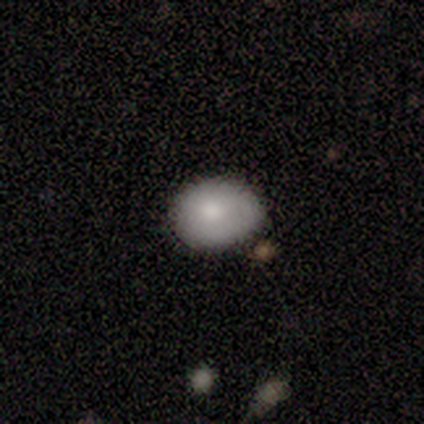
Overall: smooth (75%). How rounded: in between (67%; round 33%). Merging: none (50%, tied with minor disturbance).